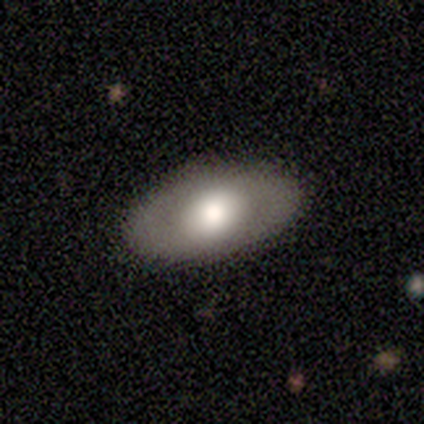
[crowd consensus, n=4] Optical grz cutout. It shows a smooth galaxy with no disk features (75%) that is in between round and cigar-shaped (100%). Merging: none (100%).